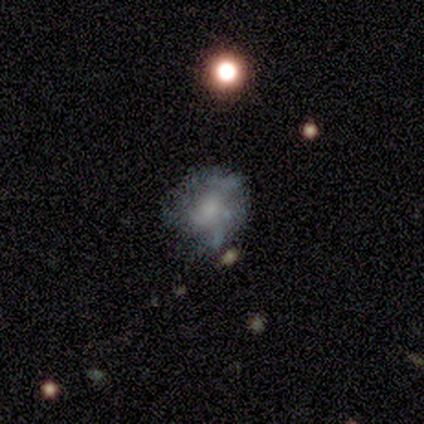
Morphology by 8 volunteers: Smooth or featured? 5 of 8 (62%) said featured or disk. Edge-on disk? 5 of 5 (100%) said no. Bar? 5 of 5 (100%) said no. Spiral arms? 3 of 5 (60%) said yes. Spiral winding? 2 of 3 (67%) said medium. Spiral arm count? 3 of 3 (100%) said can't tell. Bulge size? 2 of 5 (40%) said large. Merging? 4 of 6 (67%) said none.